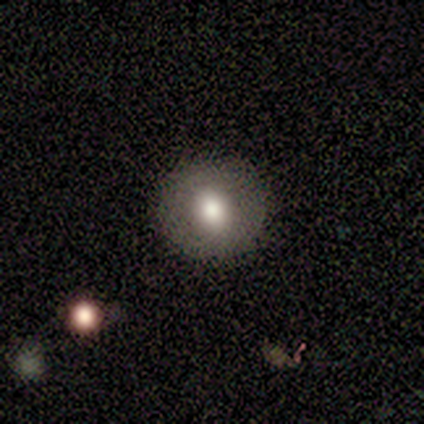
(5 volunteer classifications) Q: Smooth or featured?
A: smooth (60%); runner-up: featured or disk (40%)
Q: How rounded?
A: round (100%)
Q: Merging?
A: none (100%)